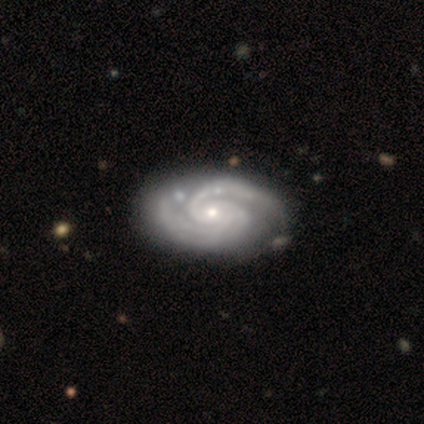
smooth-or-featured: featured or disk: 100% | smooth: 0% | star or artifact: 0%
  disk-edge-on: no: 100% | yes: 0%
    bar: no: 75% | weak: 22% | strong: 2%
    has-spiral-arms: yes: 98% | no: 2%
      spiral-winding: tight: 69% | medium: 31% | loose: 0%
      spiral-arm-count: 2: 49% | 3: 36% | can't tell: 8% | 4: 5% | 1: 3% | more than 4: 0%
    bulge-size: moderate: 50% | small: 45% | large: 2% | none: 2% | dominant: 0%
  merging: none: 42% | minor disturbance: 12% | merger: 2% | major disturbance: 0%